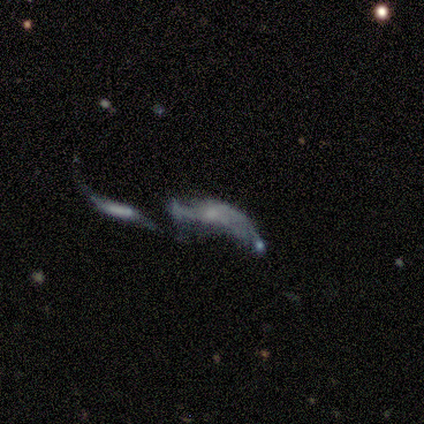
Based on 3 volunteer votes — Smooth or featured? featured or disk (100%)
Edge-on disk? no (100%)
Bar? no (67%)
Spiral arms? yes (67%)
Spiral winding? loose (100%)
Spiral arm count? 2 (100%)
Bulge size? none (67%)
Merging? none (33%, tied with major disturbance and merger)